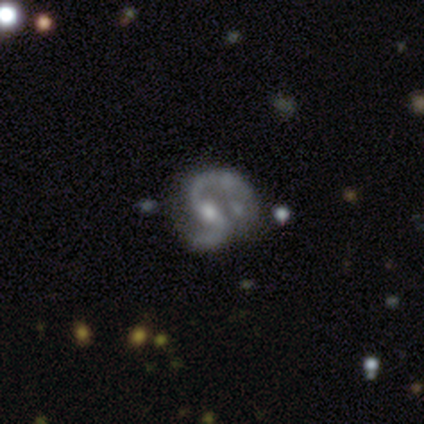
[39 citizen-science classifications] Morphology: type=featured or disk (92%); edge-on=no (100%); bar=weak (61%); spiral arms=yes (94%); winding=medium (50%); arm count=2 (97%); bulge=moderate (61%); merging=none (49%).